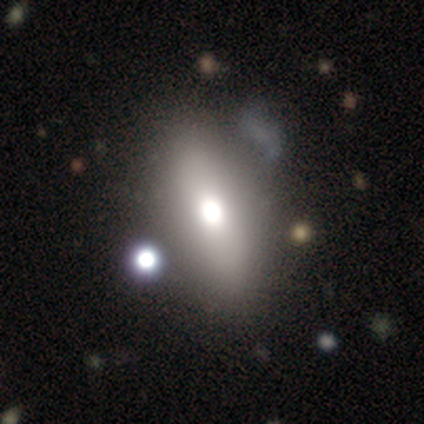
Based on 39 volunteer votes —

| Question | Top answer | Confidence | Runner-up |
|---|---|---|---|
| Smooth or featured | smooth | 64% | featured or disk (28%) |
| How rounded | in between | 92% | round (4%) |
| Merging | none | 47% | merger (17%) |